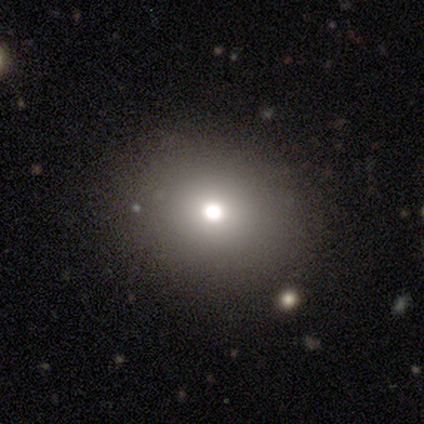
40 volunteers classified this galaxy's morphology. smooth 65%, star or artifact 20%, featured or disk 15%. Down the decision tree: how rounded — round (81%); merging — none (84%).